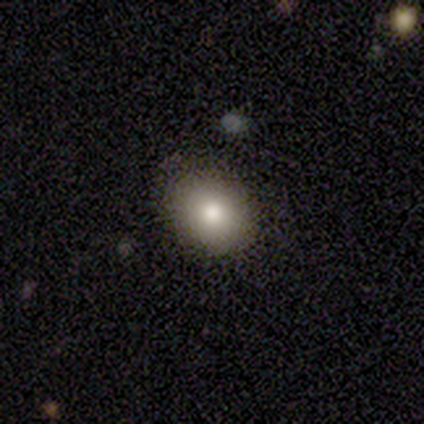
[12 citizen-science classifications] Morphology: type=smooth (83%); roundness=round (50%, tied with in between); merging=none (100%).